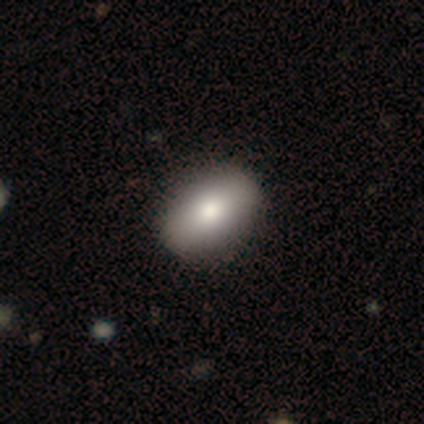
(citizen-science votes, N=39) Q: Smooth or featured?
A: smooth (85%); runner-up: featured or disk (13%)
Q: How rounded?
A: in between (85%); runner-up: round (12%)
Q: Merging?
A: none (68%); runner-up: minor disturbance (8%)